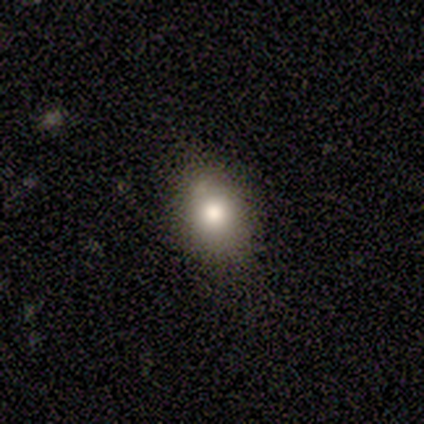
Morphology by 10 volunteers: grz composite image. It shows a smooth galaxy with no disk features (100%) that is in between round and cigar-shaped (80%). Merging: none (80%).